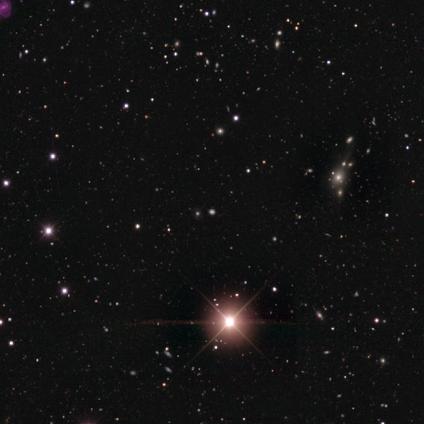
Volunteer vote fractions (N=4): smooth-or-featured: star or artifact: 100% | smooth: 0% | featured or disk: 0%